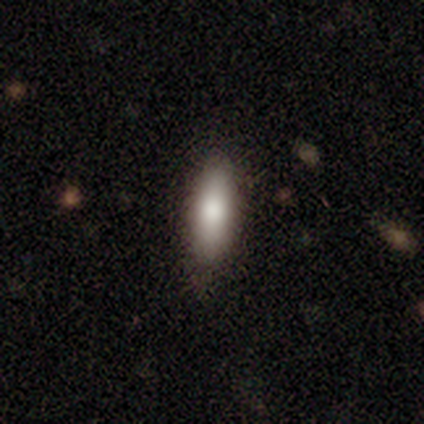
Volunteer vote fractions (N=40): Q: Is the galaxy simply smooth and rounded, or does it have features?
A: smooth — 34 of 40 (85%).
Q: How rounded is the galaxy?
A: cigar-shaped — 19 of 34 (56%).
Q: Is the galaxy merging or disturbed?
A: none — 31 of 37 (84%).